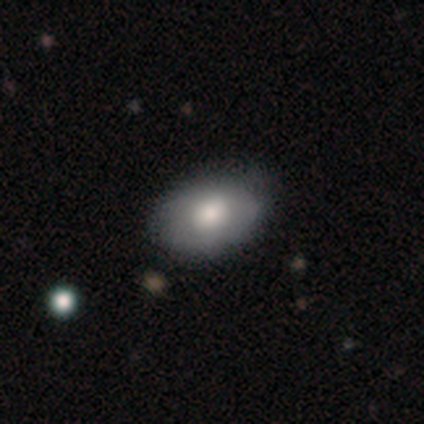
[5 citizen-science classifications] This is likely a smooth galaxy (60%). How rounded: clearly in between (100%). Merging: likely none (60%).